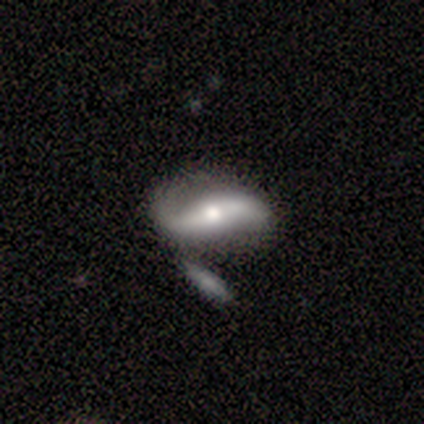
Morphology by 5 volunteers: type=featured or disk (100%); edge-on=no (100%); bar=strong (40%, tied with no); spiral arms=yes (80%); winding=loose (75%); arm count=2 (100%); bulge=moderate (60%); merging=none (40%, tied with merger).